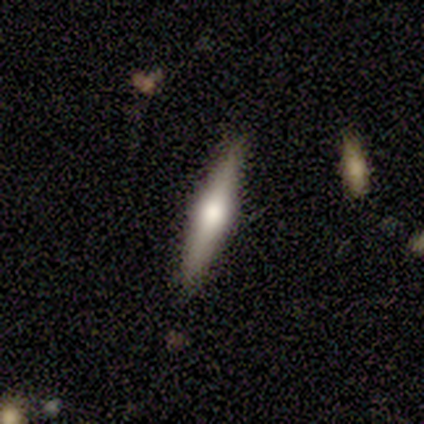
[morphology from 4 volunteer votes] A star or artifact, not a galaxy (50%).

Vote fractions:
- Smooth or featured? star or artifact: 50% / smooth: 25% / featured or disk: 25%